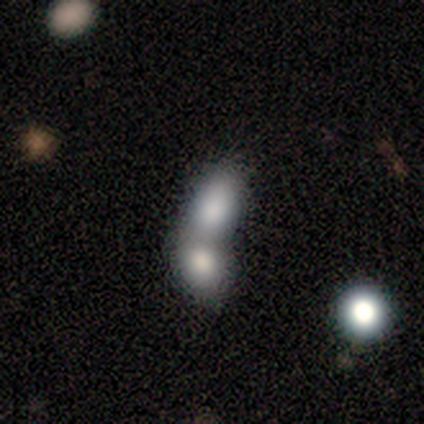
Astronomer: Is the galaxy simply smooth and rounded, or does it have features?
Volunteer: smooth — 80%.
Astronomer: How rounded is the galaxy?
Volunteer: in between — 100%.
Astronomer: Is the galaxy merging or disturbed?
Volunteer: merger — 100%.